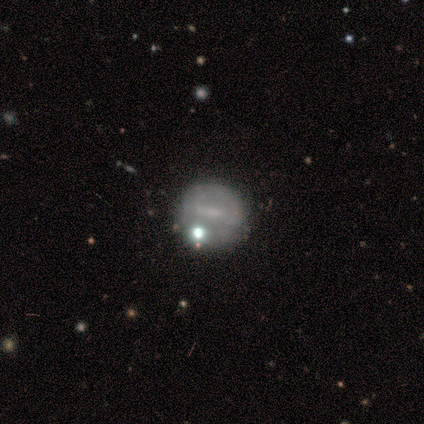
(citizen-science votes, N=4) Q: Smooth or featured?
A: featured or disk (75%); runner-up: smooth (25%)
Q: Edge-on disk?
A: no (100%)
Q: Bar?
A: weak (100%)
Q: Spiral arms?
A: no (100%)
Q: Bulge size?
A: none (67%); runner-up: small (33%)
Q: Merging?
A: none (100%)